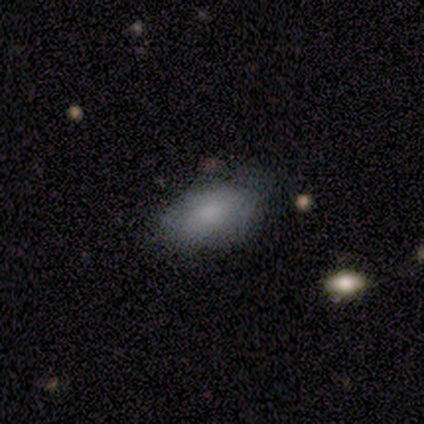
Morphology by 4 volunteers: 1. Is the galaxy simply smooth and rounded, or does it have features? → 100% smooth, 0% featured or disk, 0% star or artifact.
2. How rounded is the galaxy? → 100% in between, 0% round, 0% cigar-shaped.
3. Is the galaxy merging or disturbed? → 75% minor disturbance, 25% none, 0% major disturbance, 0% merger.